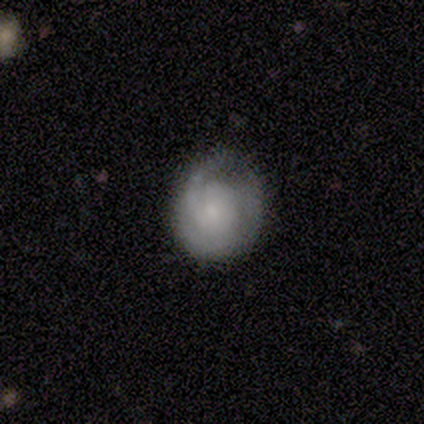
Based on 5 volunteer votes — A featured or disk galaxy (80%) with no bar (75%), 2 (50%) tight (50%) spiral arms (100%) and a small central bulge (50%). Merging: none (80%).